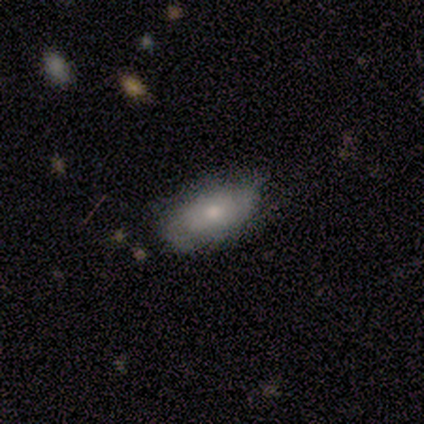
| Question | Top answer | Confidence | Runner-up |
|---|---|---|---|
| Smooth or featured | smooth | 100% | — |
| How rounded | in between | 100% | — |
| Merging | none | 75% | minor disturbance (25%) |